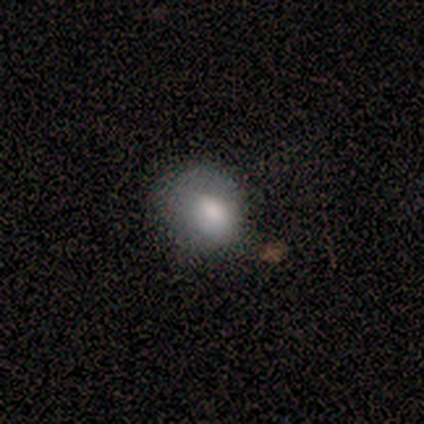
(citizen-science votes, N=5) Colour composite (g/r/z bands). It shows a smooth galaxy with no disk features (80%) that is round (50%, tied with in between). Merging: none (80%).